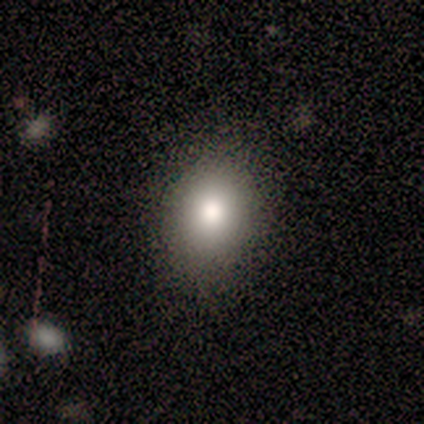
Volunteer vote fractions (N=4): Smooth or featured? smooth (50%, tied with star or artifact)
How rounded? in between (100%)
Merging? none (100%)